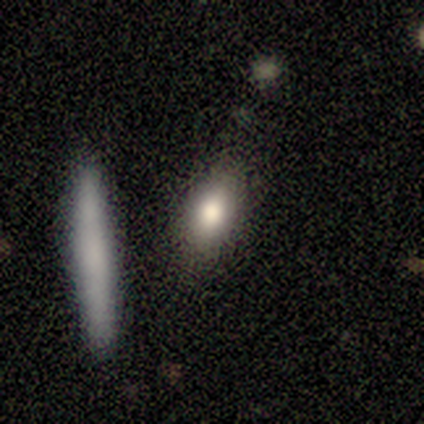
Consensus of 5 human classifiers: smooth 100%, featured or disk 0%, star or artifact 0%. Down the decision tree: how rounded — in between (80%); merging — none (100%).